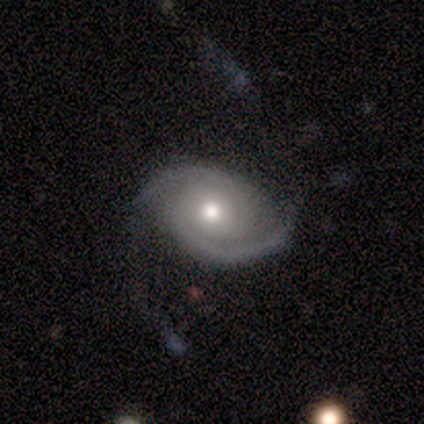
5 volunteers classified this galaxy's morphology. smooth-or-featured: featured or disk: 100% | smooth: 0% | star or artifact: 0%
  disk-edge-on: no: 100% | yes: 0%
    bar: no: 100% | strong: 0% | weak: 0%
    has-spiral-arms: yes: 100% | no: 0%
      spiral-winding: tight: 40% (tied) | medium: 40% (tied) | loose: 20%
      spiral-arm-count: 2: 100% | 1: 0% | 3: 0% | 4: 0% | more than 4: 0% | can't tell: 0%
    bulge-size: moderate: 80% | small: 20% | dominant: 0% | large: 0% | none: 0%
  merging: none: 60% | minor disturbance: 20% | major disturbance: 20% | merger: 0%